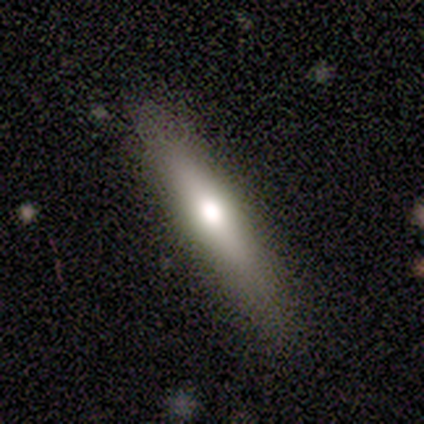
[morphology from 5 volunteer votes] Overall: featured or disk (60%; smooth 40%). Edge-on disk: yes (100%). Edge-on bulge: rounded (100%). Merging: none (100%).